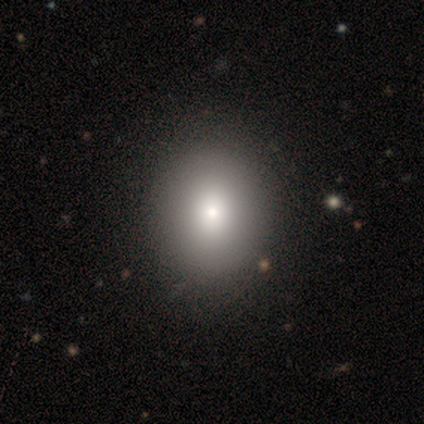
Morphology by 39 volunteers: smooth_or_featured: smooth (p=0.77) [alt: featured or disk p=0.23]
how_rounded: round (p=0.70) [alt: in between p=0.30]
merging: none (p=0.72) [alt: minor disturbance p=0.08]